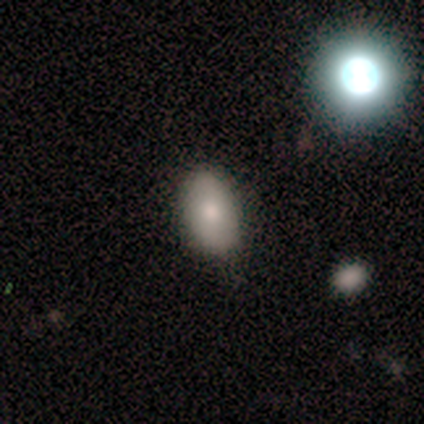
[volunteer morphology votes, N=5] Smooth or featured? 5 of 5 (100%) said smooth. How rounded? 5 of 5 (100%) said in between. Merging? 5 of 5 (100%) said none.